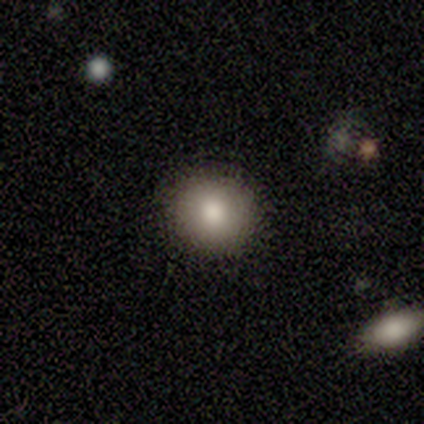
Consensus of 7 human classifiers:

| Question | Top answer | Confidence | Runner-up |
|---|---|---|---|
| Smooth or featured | smooth | 100% | — |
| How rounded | round | 86% | in between (14%) |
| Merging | none | 86% | major disturbance (14%) |